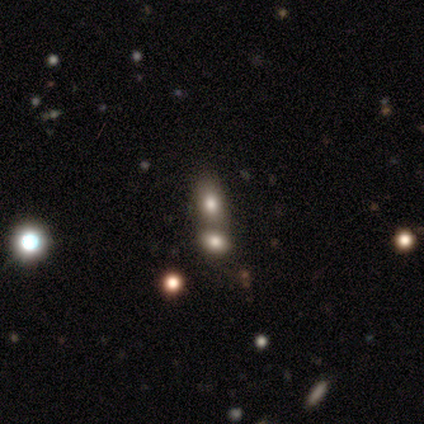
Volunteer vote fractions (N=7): This appears to be a smooth galaxy with no disk features (57%) that is in between round and cigar-shaped (100%). Merging: merger (60%).